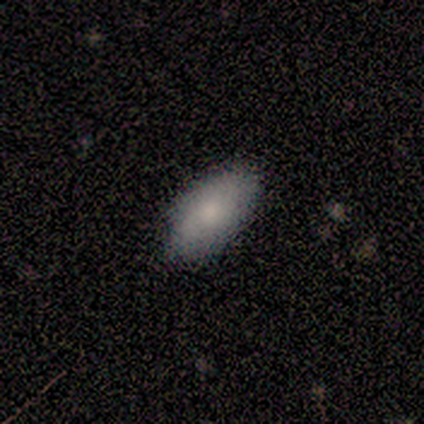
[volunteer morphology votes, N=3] Smooth or featured?
  - smooth: 100% *
  - featured or disk: 0%
  - star or artifact: 0%
How rounded?
  - in between: 100% *
  - round: 0%
  - cigar-shaped: 0%
Merging?
  - none: 100% *
  - minor disturbance: 0%
  - major disturbance: 0%
  - merger: 0%